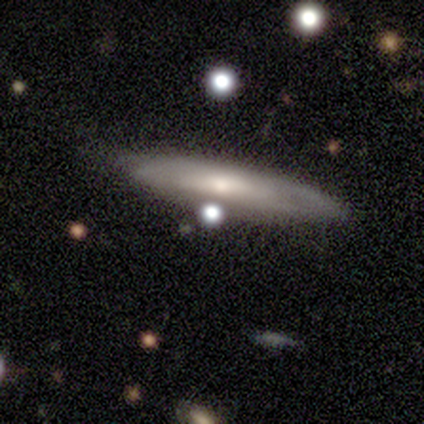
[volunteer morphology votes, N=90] This appears to be a featured or disk galaxy (51%) viewed edge-on (61%) with a rounded central bulge (46%). Merging: none (65%).